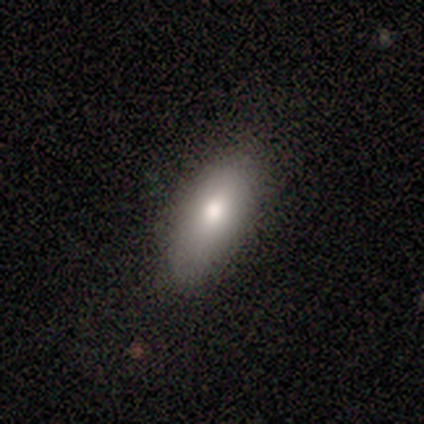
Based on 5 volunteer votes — This is clearly a smooth galaxy (100%). How rounded: clearly in between (80%). Merging: clearly none (80%).